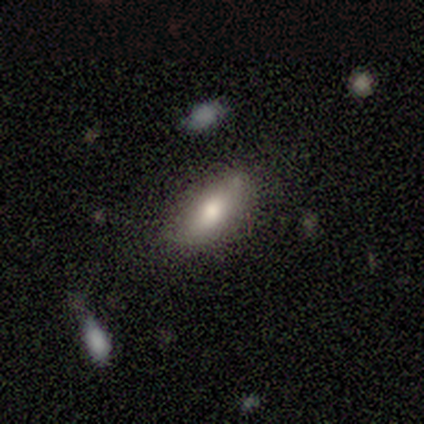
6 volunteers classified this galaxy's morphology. smooth 67%, featured or disk 33%, star or artifact 0%. Down the decision tree: how rounded — in between (75%); merging — none (83%).